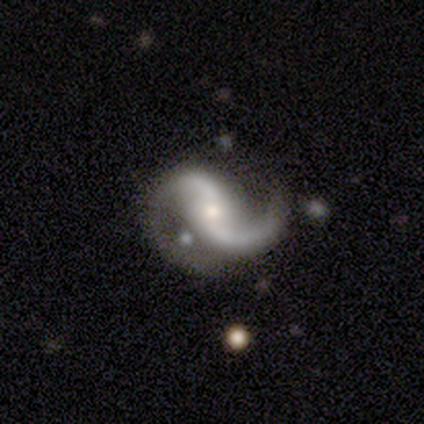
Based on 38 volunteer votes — Overall: featured or disk (89%). Edge-on disk: no (97%). Bar: no (45%; weak 36%). Spiral arms: yes (100%). Spiral arm count: 2 (97%). Spiral winding: loose (64%; medium 27%). Bulge size: moderate (52%; small 39%). Merging: none (47%; minor disturbance 29%).